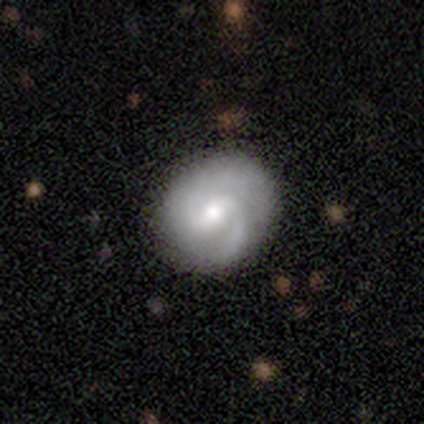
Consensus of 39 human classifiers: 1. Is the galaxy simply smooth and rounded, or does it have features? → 82% featured or disk, 18% smooth, 0% star or artifact.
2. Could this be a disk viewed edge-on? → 100% no, 0% yes.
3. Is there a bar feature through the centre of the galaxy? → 72% weak, 19% no, 9% strong.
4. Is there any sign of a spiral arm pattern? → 94% yes, 6% no.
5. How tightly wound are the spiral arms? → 47% medium, 27% tight, 27% loose.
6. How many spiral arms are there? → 73% 2, 10% 1, 10% 3, 7% can't tell, 0% 4, 0% more than 4.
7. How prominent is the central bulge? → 62% moderate, 25% small, 9% large, 3% none, 0% dominant.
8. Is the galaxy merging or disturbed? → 77% none, 13% minor disturbance, 8% major disturbance, 3% merger.